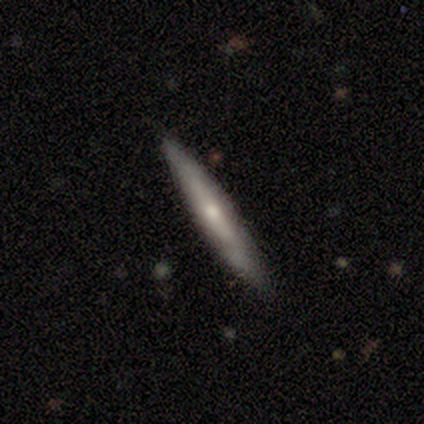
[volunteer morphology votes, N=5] smooth-or-featured: smooth: 80% | featured or disk: 20% | star or artifact: 0%
  how-rounded: cigar-shaped: 100% | round: 0% | in between: 0%
  merging: none: 80% | minor disturbance: 20% | major disturbance: 0% | merger: 0%